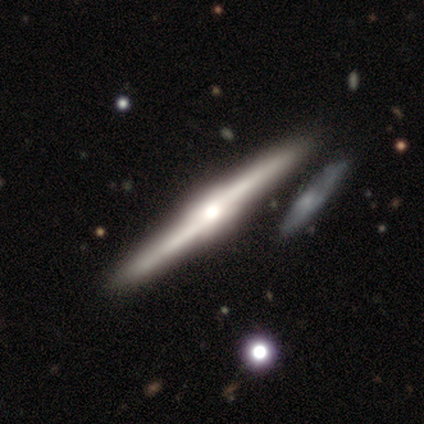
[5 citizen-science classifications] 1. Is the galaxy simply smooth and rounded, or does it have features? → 100% featured or disk, 0% smooth, 0% star or artifact.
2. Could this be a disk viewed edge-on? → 100% yes, 0% no.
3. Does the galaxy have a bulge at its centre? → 60% rounded, 40% boxy, 0% none.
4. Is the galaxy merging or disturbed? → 100% none, 0% minor disturbance, 0% major disturbance, 0% merger.